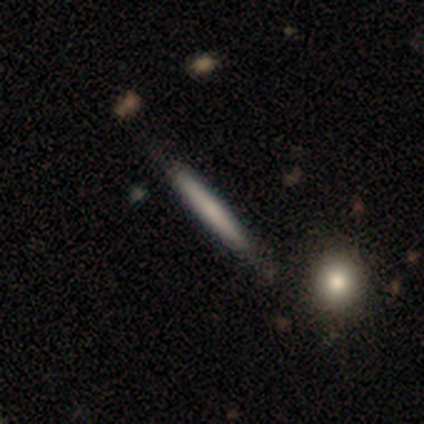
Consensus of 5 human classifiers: Smooth or featured? smooth (60%)
How rounded? cigar-shaped (100%)
Merging? none (60%)